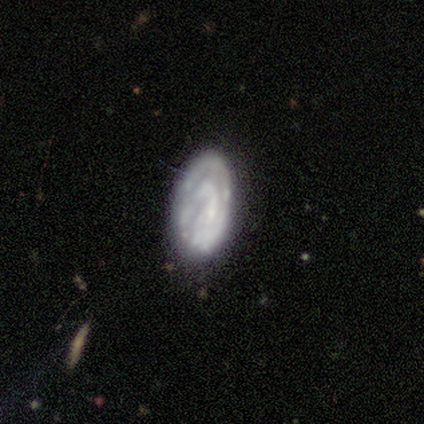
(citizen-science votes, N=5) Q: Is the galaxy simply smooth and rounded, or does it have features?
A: featured or disk — 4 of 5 (80%).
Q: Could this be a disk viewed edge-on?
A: no — 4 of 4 (100%).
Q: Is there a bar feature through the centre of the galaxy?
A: no — 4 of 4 (100%).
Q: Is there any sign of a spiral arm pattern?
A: yes — 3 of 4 (75%).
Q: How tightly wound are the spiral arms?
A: tight — 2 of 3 (67%).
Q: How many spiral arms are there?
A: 2 — 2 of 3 (67%).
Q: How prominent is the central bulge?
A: none — 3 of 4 (75%).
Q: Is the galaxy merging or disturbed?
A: none — 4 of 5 (80%).